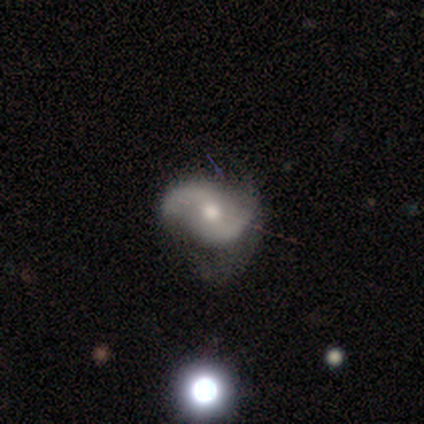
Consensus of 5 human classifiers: This is clearly a featured or disk galaxy (80%). It is clearly not viewed edge-on (100%). Bar: likely weak (75%). Spiral arm pattern: clearly yes (100%). Spiral arm count: clearly 2 (100%). Spiral winding: possibly medium (50%, tied with loose). Central bulge: likely moderate (75%). Merging: likely none (75%).